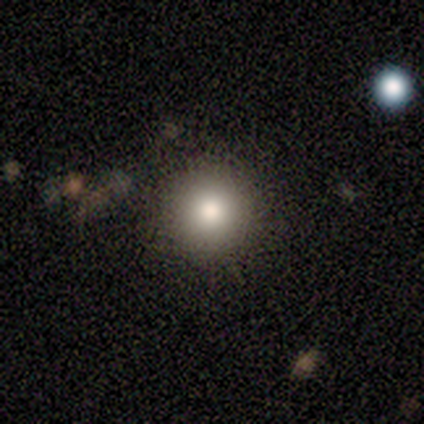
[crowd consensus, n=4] This is likely a smooth galaxy (75%). How rounded: clearly round (100%). Merging: clearly none (100%).